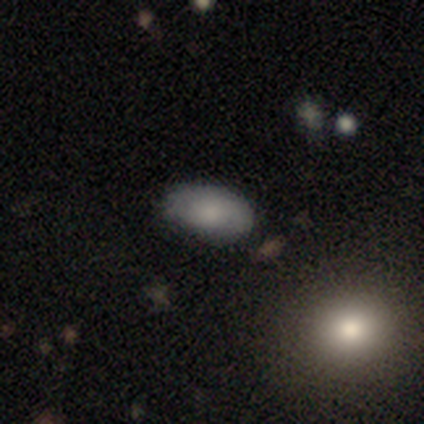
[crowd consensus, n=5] smooth 80%, star or artifact 20%, featured or disk 0%. Down the decision tree: how rounded — in between (100%); merging — none (75%).